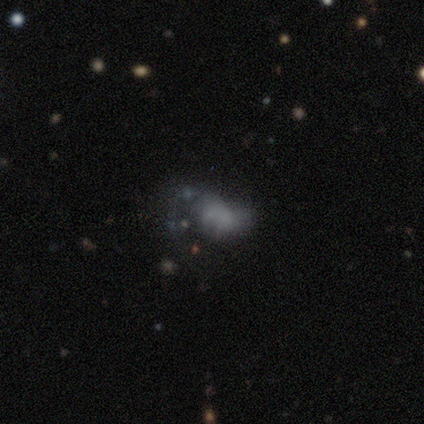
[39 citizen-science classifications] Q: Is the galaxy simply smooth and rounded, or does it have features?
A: smooth — 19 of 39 (49%, tied with featured or disk).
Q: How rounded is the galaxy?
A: in between — 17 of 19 (89%).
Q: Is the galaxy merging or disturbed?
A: none — 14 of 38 (37%, tied with major disturbance).